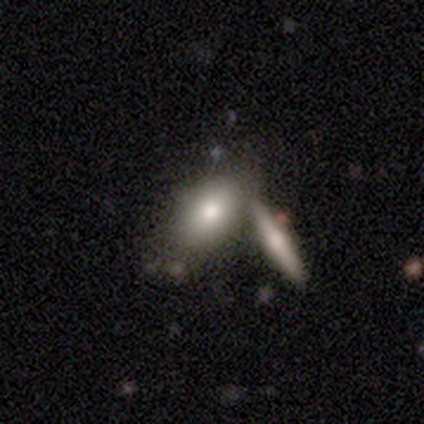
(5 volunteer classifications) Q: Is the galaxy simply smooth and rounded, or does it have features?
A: smooth — 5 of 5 (100%).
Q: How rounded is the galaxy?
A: in between — 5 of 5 (100%).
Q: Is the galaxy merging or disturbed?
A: none — 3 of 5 (60%).